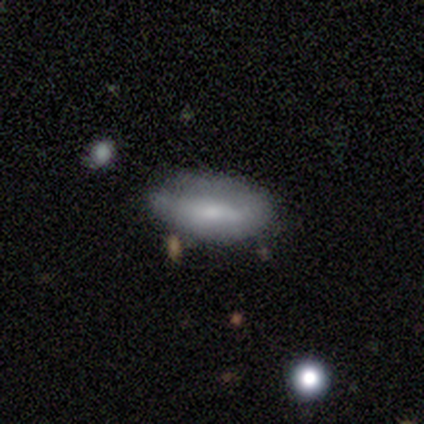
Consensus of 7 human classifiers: Smooth or featured? smooth (57%)
How rounded? in between (100%)
Merging? none (100%)